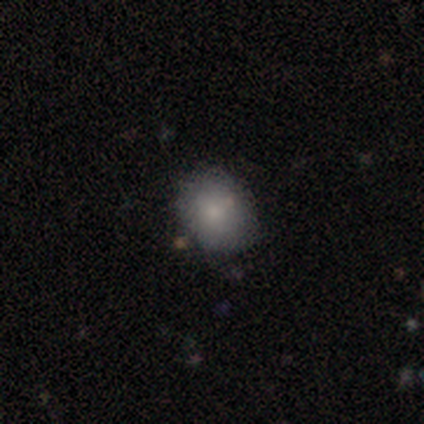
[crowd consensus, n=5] Smooth or featured: smooth — 60% (featured or disk — 40%)
How rounded: in between — 100%
Merging: none — 80% (merger — 20%)